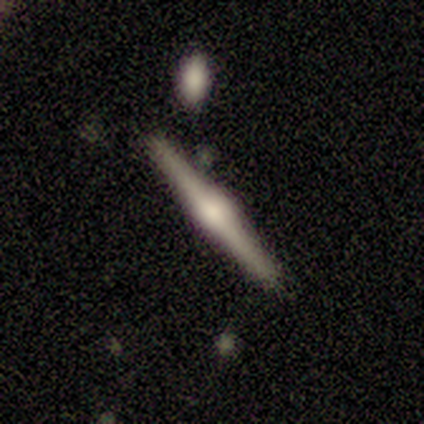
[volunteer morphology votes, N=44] A featured or disk galaxy (86%) viewed edge-on (100%) with a rounded central bulge (89%).

Vote fractions:
- Smooth or featured? featured or disk: 86% / smooth: 11% / star or artifact: 2%
- Edge-on disk? yes: 100% / no: 0%
- Edge-on bulge? rounded: 89% / boxy: 11% / none: 0%
- Merging? none: 93% / merger: 7% / minor disturbance: 0% / major disturbance: 0%